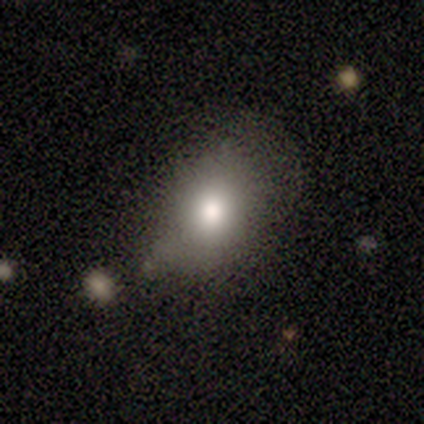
Smooth or featured?
  - smooth: 80% *
  - featured or disk: 20%
  - star or artifact: 0%
How rounded?
  - in between: 75% *
  - round: 25%
  - cigar-shaped: 0%
Merging?
  - none: 60% *
  - minor disturbance: 20%
  - major disturbance: 20%
  - merger: 0%